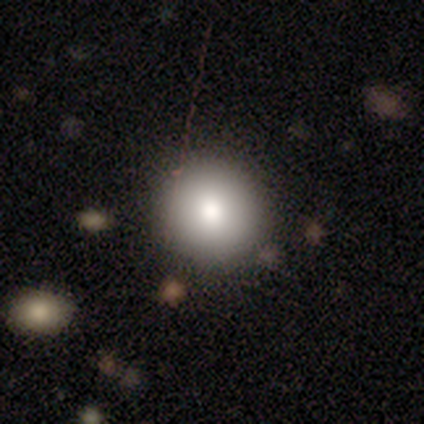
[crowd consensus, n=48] Smooth or featured? smooth (77%)
How rounded? round (97%)
Merging? none (90%)